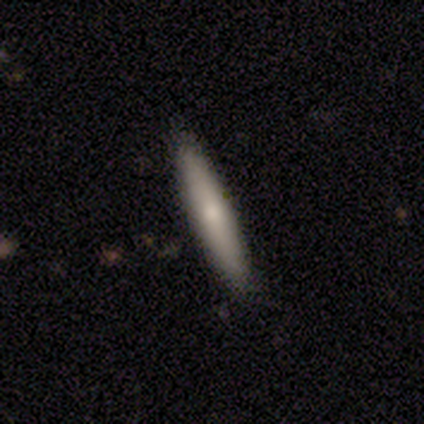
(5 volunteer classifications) smooth_or_featured: smooth (p=0.60) [alt: featured or disk p=0.40]
how_rounded: cigar-shaped (p=0.67) [alt: in between p=0.33]
merging: none (p=1.00)